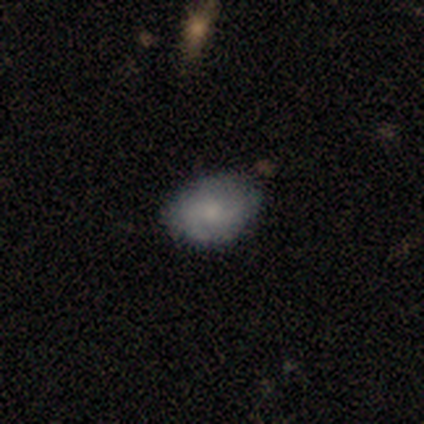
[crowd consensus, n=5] This is likely a smooth galaxy (60%). How rounded: clearly in between (100%). Merging: clearly none (100%).